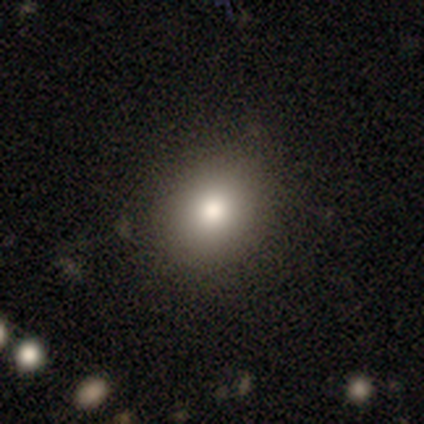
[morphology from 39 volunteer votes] A smooth galaxy with no disk features (79%) that is round (61%). Merging: none (86%).